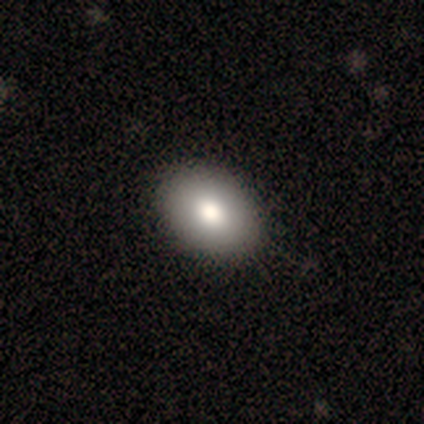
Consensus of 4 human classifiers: smooth 100%, featured or disk 0%, star or artifact 0%. Down the decision tree: how rounded — in between (75%); merging — none (100%).